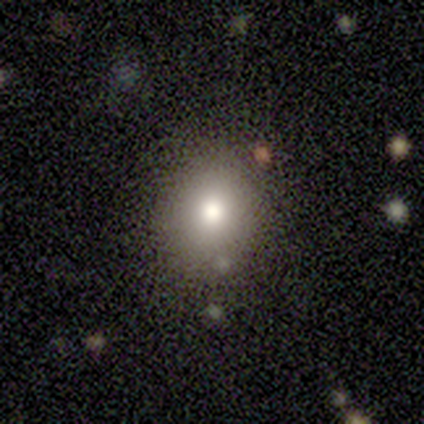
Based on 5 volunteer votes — This is clearly a smooth galaxy (80%). How rounded: possibly round (50%, tied with in between). Merging: clearly none (80%).